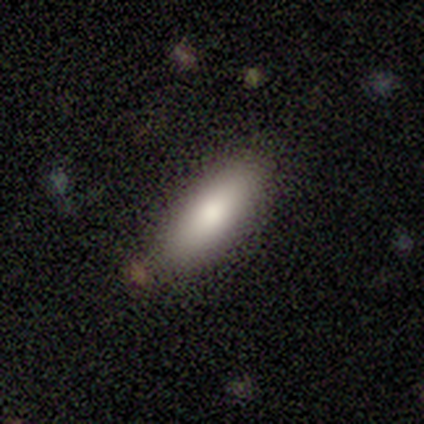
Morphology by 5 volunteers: Smooth or featured? smooth (80%)
How rounded? in between (75%)
Merging? none (60%)